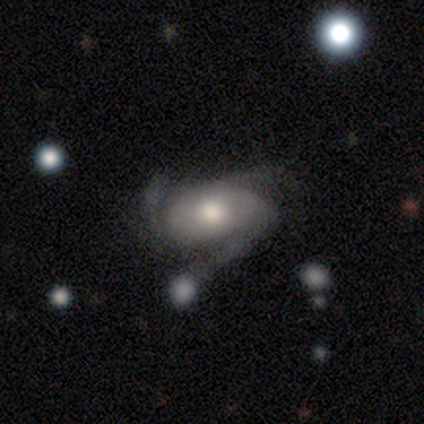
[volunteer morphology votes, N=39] A featured or disk galaxy (74%) with no bar (82%), 3 (73%) medium (73%) spiral arms (93%) and a moderate central bulge (79%).

Vote fractions:
- Smooth or featured? featured or disk: 74% / smooth: 18% / star or artifact: 8%
- Edge-on disk? no: 97% / yes: 3%
- Bar? no: 82% / weak: 18% / strong: 0%
- Spiral arms? yes: 93% / no: 7%
- Spiral winding? medium: 73% / tight: 23% / loose: 4%
- Spiral arm count? 3: 73% / 2: 15% / can't tell: 12% / 1: 0% / 4: 0% / more than 4: 0%
- Bulge size? moderate: 79% / large: 11% / small: 11% / dominant: 0% / none: 0%
- Merging? none: 64% / minor disturbance: 25% / merger: 8% / major disturbance: 3%